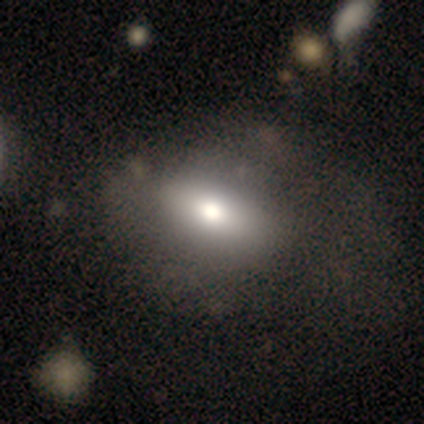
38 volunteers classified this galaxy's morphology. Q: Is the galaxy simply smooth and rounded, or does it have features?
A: smooth — 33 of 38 (87%).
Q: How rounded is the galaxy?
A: in between — 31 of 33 (94%).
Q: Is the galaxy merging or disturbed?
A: none — 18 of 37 (49%).